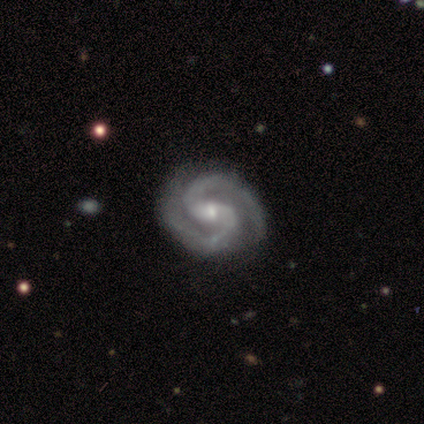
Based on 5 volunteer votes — Smooth or featured? featured or disk (100%)
Edge-on disk? no (100%)
Bar? weak (80%)
Spiral arms? yes (100%)
Spiral winding? medium (80%)
Spiral arm count? 2 (100%)
Bulge size? small (80%)
Merging? none (100%)